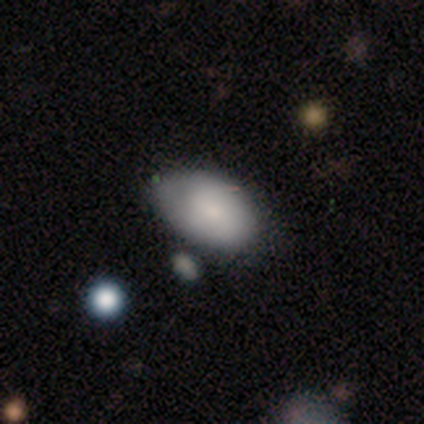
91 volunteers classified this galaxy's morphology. This appears to be a smooth galaxy with no disk features (79%) that is in between round and cigar-shaped (94%). Merging: none (61%).